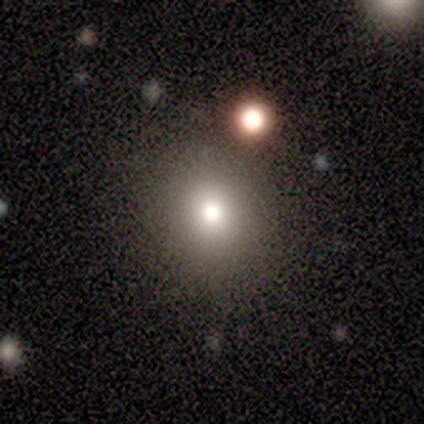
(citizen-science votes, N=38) smooth 68%, star or artifact 18%, featured or disk 13%. Down the decision tree: how rounded — round (85%); merging — none (81%).